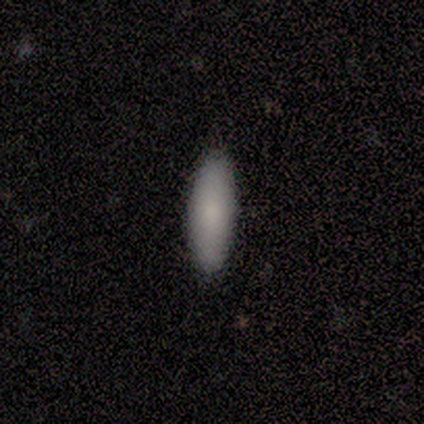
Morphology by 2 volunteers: This is clearly a smooth galaxy (100%). How rounded: possibly in between (50%, tied with cigar-shaped). Merging: clearly none (100%).